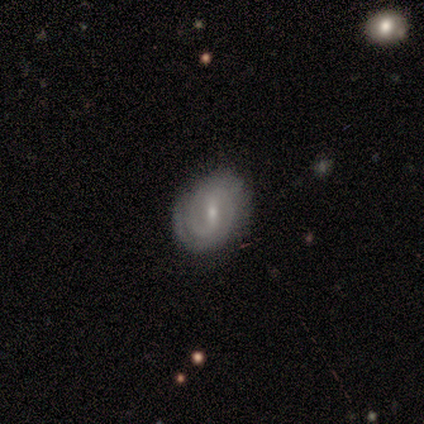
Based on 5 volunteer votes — A featured or disk galaxy (100%) with a strong bar (40%, tied with weak), 2 (80%) tight (80%) spiral arms (100%) and a small central bulge (80%). Merging: none (80%).